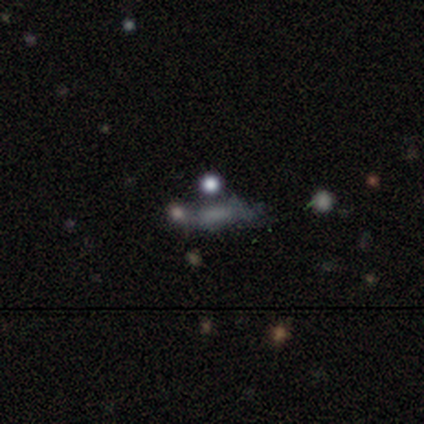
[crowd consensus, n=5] A star or artifact, not a galaxy (60%).

Vote fractions:
- Smooth or featured? star or artifact: 60% / smooth: 20% / featured or disk: 20%